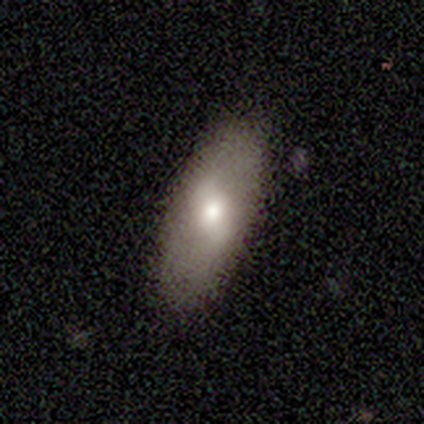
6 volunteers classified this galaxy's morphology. This is clearly a smooth galaxy (83%). How rounded: clearly in between (100%). Merging: clearly none (100%).